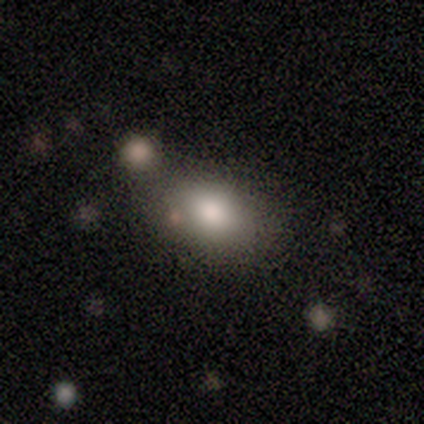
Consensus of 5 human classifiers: Morphology: type=smooth (100%); roundness=in between (60%); merging=none (60%).